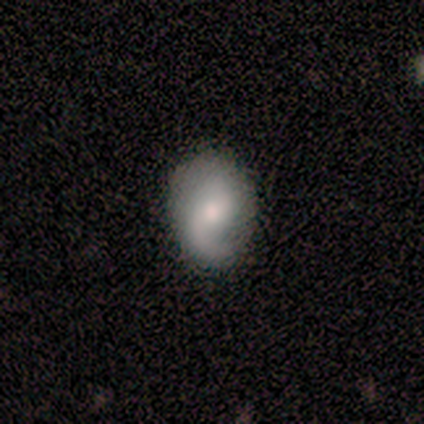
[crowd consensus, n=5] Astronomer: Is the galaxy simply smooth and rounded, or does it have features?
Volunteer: featured or disk — 80%.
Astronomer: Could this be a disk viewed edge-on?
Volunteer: no — 100%.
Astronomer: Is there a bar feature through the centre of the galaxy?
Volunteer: no — 100%.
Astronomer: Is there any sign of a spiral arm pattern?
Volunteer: yes — 75%.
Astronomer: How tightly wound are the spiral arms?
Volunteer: tight — 33%, tied with medium and loose at 33%.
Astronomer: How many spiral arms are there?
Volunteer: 1 — 67%.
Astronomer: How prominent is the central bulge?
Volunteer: moderate — 75%.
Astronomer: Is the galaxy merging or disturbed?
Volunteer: none — 80%.